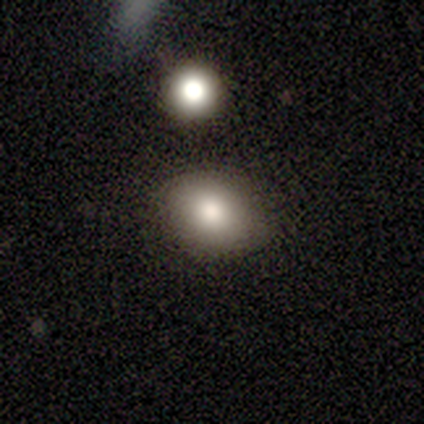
Volunteers were most divided on "how rounded": in between: 67%, round: 33%, cigar-shaped: 0%. More confident: merging — none (75%); smooth or featured — smooth (60%).